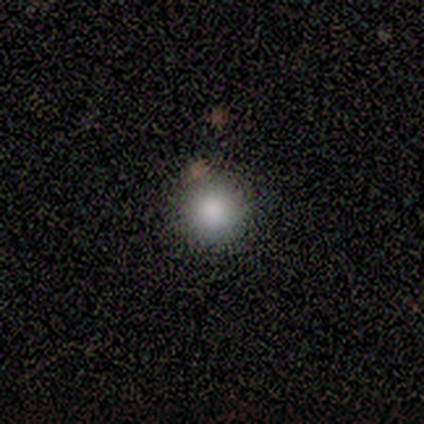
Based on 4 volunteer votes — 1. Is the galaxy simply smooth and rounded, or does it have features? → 100% smooth, 0% featured or disk, 0% star or artifact.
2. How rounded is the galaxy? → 100% round, 0% in between, 0% cigar-shaped.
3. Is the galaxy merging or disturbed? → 50% none (tied), 50% merger (tied), 0% minor disturbance, 0% major disturbance.